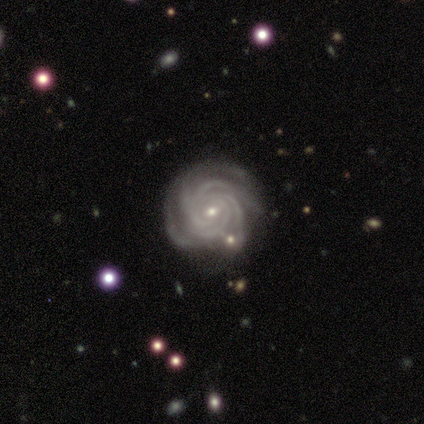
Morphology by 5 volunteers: Q: Smooth or featured?
A: featured or disk (100%)
Q: Edge-on disk?
A: no (100%)
Q: Bar?
A: no (100%)
Q: Spiral arms?
A: yes (100%)
Q: Spiral winding?
A: tight (80%); runner-up: medium (20%)
Q: Spiral arm count?
A: 4 (60%); runner-up: 3 (20%)
Q: Bulge size?
A: small (100%)
Q: Merging?
A: minor disturbance (60%); runner-up: none (20%)